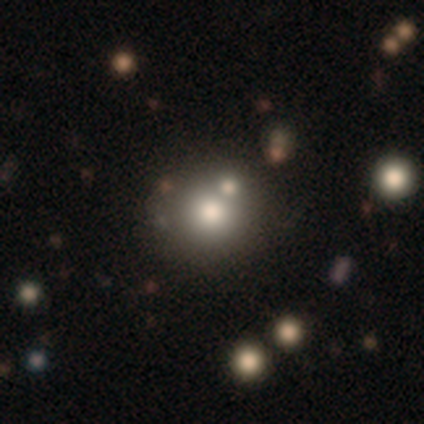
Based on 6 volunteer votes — Morphology: type=smooth (50%); roundness=round (100%); merging=none (50%).